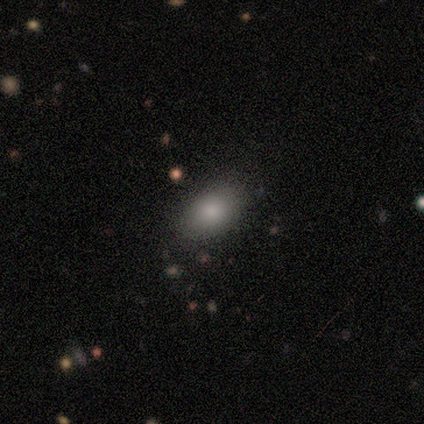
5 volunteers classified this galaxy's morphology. Smooth or featured: smooth — 100%
How rounded: in between — 80% (round — 20%)
Merging: none — 100%